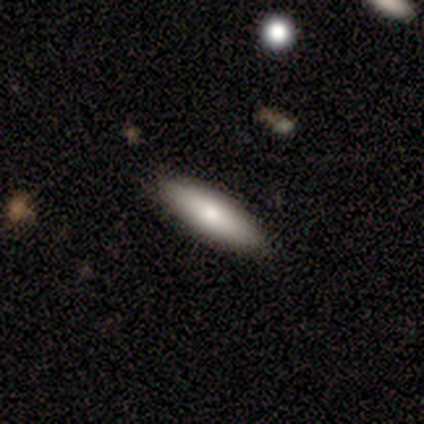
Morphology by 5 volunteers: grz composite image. It shows a featured or disk galaxy (60%) viewed edge-on (67%) with a rounded central bulge (100%). Merging: none (100%).